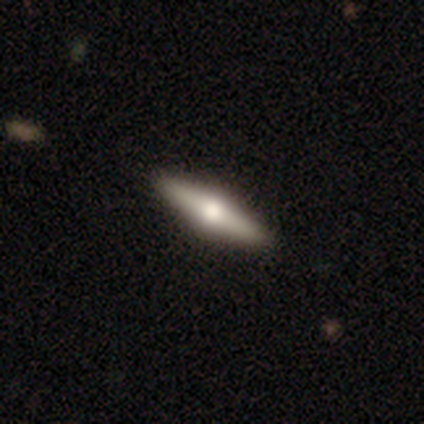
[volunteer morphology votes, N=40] This is likely a featured or disk galaxy (72%). It is clearly viewed edge-on (100%). Edge-on bulge: clearly rounded (93%). Merging: likely none (61%).